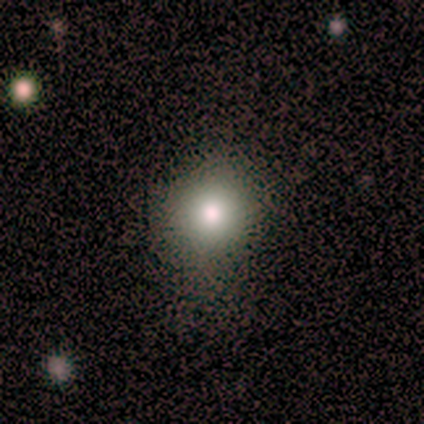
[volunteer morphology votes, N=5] This is likely a smooth galaxy (60%). How rounded: likely round (67%). Merging: clearly none (100%).